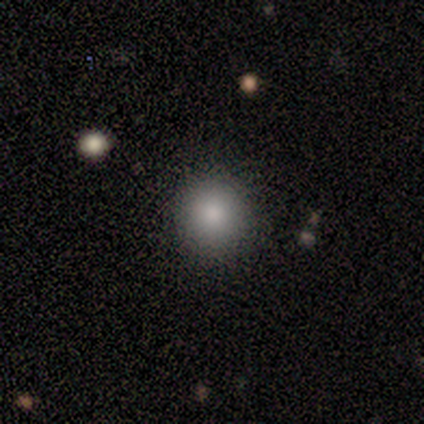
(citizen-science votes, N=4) Smooth or featured: smooth — 75% (featured or disk — 25%)
How rounded: round — 100%
Merging: none — 100%